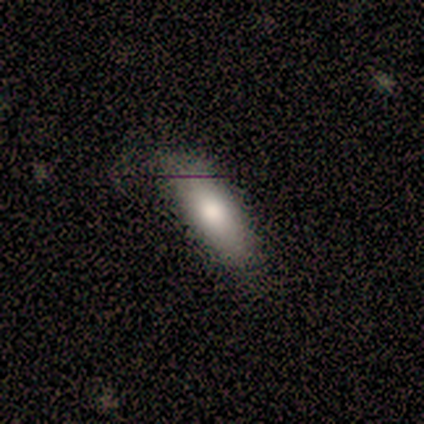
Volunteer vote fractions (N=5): smooth_or_featured: smooth (p=0.80) [alt: featured or disk p=0.20]
how_rounded: in between (p=0.50) [tied with: cigar-shaped p=0.50]
merging: none (p=1.00)